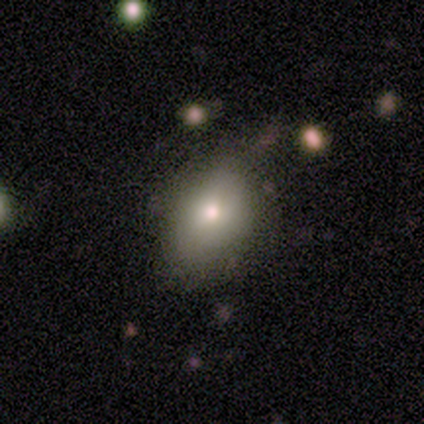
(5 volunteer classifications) smooth-or-featured: smooth: 60% | star or artifact: 40% | featured or disk: 0%
  how-rounded: in between: 100% | round: 0% | cigar-shaped: 0%
  merging: none: 67% | minor disturbance: 33% | major disturbance: 0% | merger: 0%